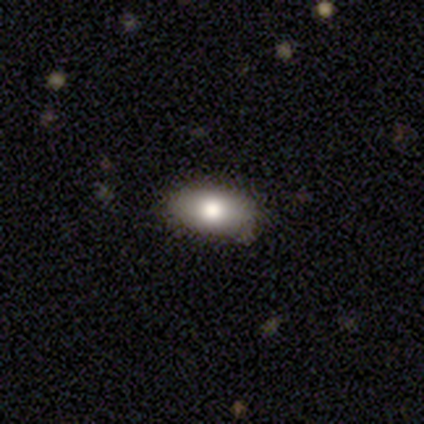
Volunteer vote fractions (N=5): Volunteers were most divided on "merging": none: 60%, minor disturbance: 40%, major disturbance: 0%, merger: 0%. More confident: how rounded — in between (100%); smooth or featured — smooth (80%).